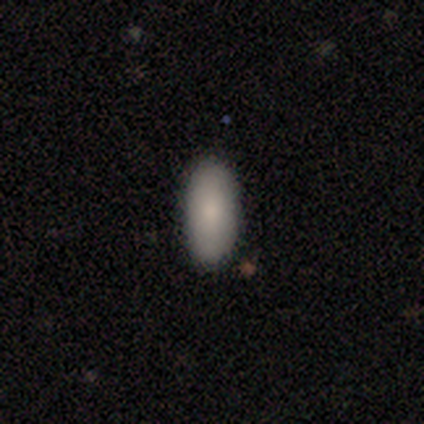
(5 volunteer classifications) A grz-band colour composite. It shows a smooth galaxy with no disk features (80%) that is in between round and cigar-shaped (100%). Merging: none (100%).